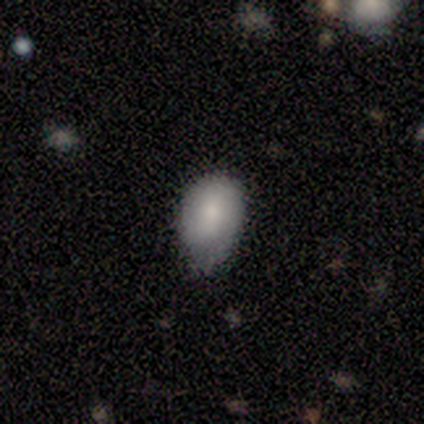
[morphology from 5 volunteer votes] Smooth or featured?
  - smooth: 80% *
  - featured or disk: 20%
  - star or artifact: 0%
How rounded?
  - in between: 100% *
  - round: 0%
  - cigar-shaped: 0%
Merging?
  - minor disturbance: 60% *
  - none: 40%
  - major disturbance: 0%
  - merger: 0%